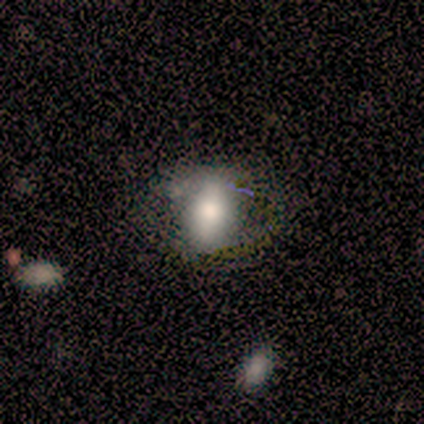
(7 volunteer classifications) Morphology: type=smooth (43%, tied with featured or disk); roundness=in between (100%); merging=none (67%).